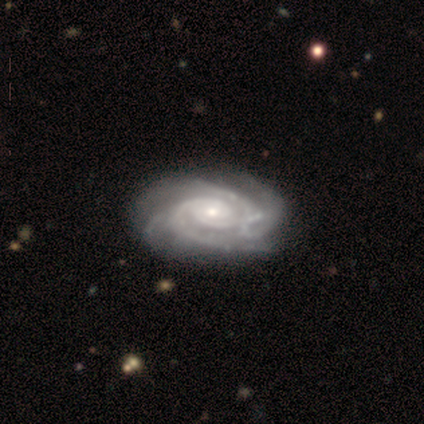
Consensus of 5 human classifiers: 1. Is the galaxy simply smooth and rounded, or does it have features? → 100% featured or disk, 0% smooth, 0% star or artifact.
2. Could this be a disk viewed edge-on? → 100% no, 0% yes.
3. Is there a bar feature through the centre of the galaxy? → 60% weak, 40% no, 0% strong.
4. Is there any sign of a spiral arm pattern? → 100% yes, 0% no.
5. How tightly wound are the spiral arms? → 60% tight, 40% medium, 0% loose.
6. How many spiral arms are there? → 80% 4, 20% 3, 0% 1, 0% 2, 0% more than 4, 0% can't tell.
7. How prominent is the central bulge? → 80% small, 20% moderate, 0% dominant, 0% large, 0% none.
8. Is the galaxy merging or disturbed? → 60% minor disturbance, 40% none, 0% major disturbance, 0% merger.